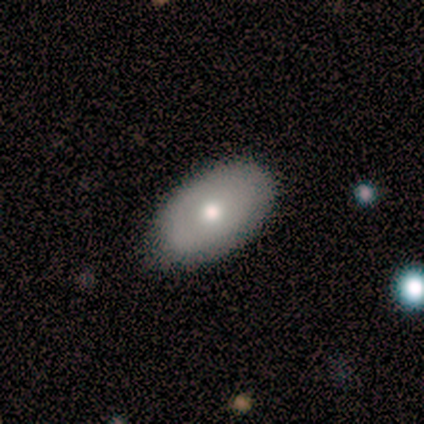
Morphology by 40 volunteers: Volunteers were most divided on "smooth or featured": smooth: 52%, featured or disk: 40%, star or artifact: 8%. More confident: how rounded — in between (95%); merging — none (81%).